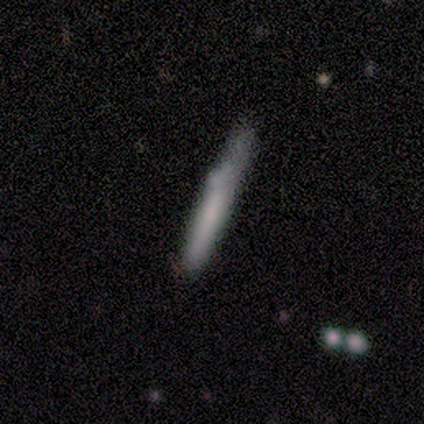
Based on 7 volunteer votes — smooth_or_featured: smooth (p=0.71) [alt: featured or disk p=0.14]
how_rounded: cigar-shaped (p=1.00)
merging: none (p=0.83) [alt: merger p=0.17]